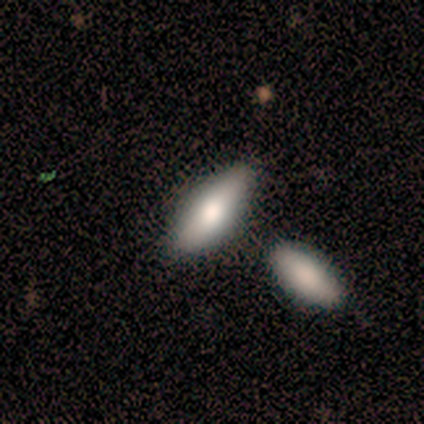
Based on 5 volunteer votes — smooth-or-featured: smooth: 100% | featured or disk: 0% | star or artifact: 0%
  how-rounded: in between: 80% | cigar-shaped: 20% | round: 0%
  merging: none: 80% | minor disturbance: 20% | major disturbance: 0% | merger: 0%